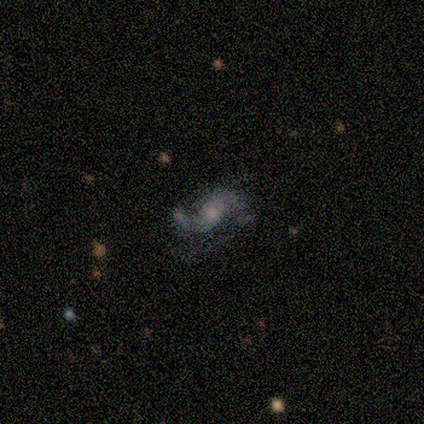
Smooth or featured? 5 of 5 (100%) said featured or disk. Edge-on disk? 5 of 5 (100%) said no. Bar? 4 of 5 (80%) said no. Spiral arms? 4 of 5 (80%) said yes. Spiral winding? 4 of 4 (100%) said loose. Spiral arm count? 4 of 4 (100%) said 2. Bulge size? 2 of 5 (40%) said large. Merging? 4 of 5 (80%) said none.